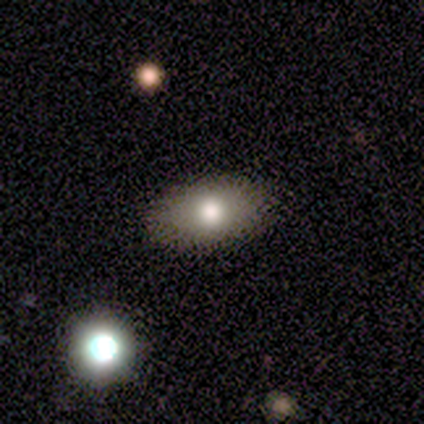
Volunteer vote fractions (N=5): Smooth or featured?
  - smooth: 80% *
  - featured or disk: 20%
  - star or artifact: 0%
How rounded?
  - in between: 100% *
  - round: 0%
  - cigar-shaped: 0%
Merging?
  - none: 100% *
  - minor disturbance: 0%
  - major disturbance: 0%
  - merger: 0%